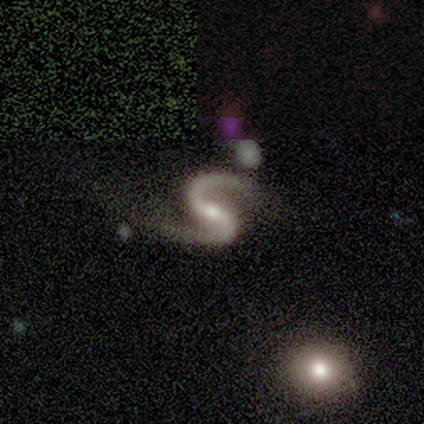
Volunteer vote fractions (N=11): This appears to be a featured or disk galaxy (100%) with a strong bar (55%), 2 (100%) loose (64%) spiral arms (100%) and a moderate central bulge (45%, tied with small). Merging: none (64%).